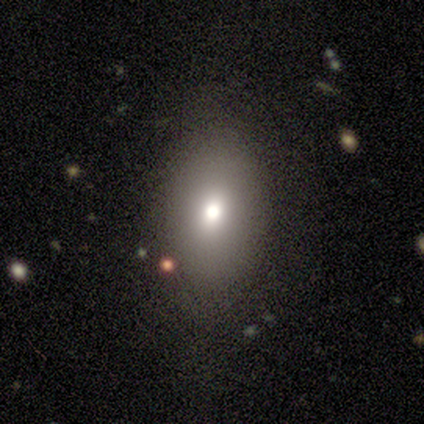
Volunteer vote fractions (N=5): A smooth galaxy with no disk features (80%) that is in between round and cigar-shaped (75%). Merging: none (50%).